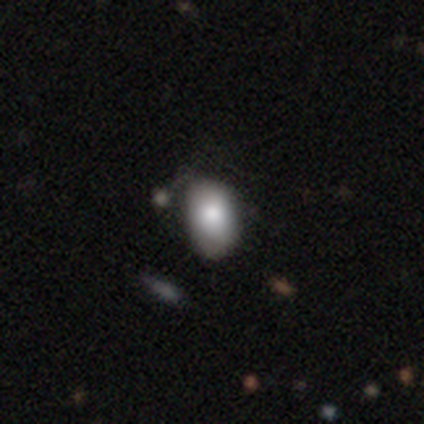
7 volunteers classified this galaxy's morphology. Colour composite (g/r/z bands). It shows a smooth galaxy with no disk features (100%) that is in between round and cigar-shaped (86%). Merging: minor disturbance (43%).